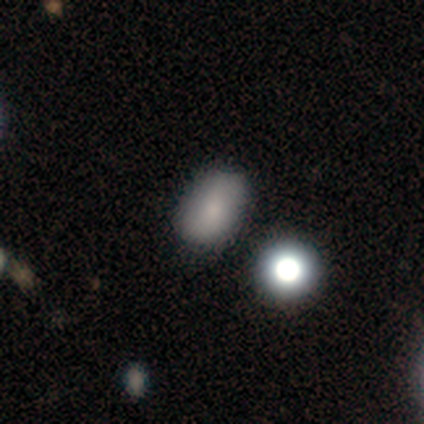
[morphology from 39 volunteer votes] This is likely a smooth galaxy (77%). How rounded: clearly in between (87%). Merging: likely none (74%).